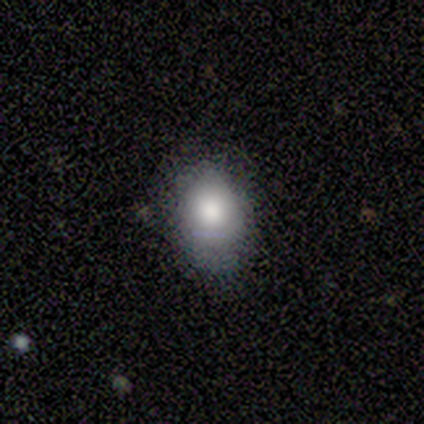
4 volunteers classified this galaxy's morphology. smooth_or_featured: smooth (p=1.00)
how_rounded: in between (p=1.00)
merging: none (p=0.75) [alt: minor disturbance p=0.25]